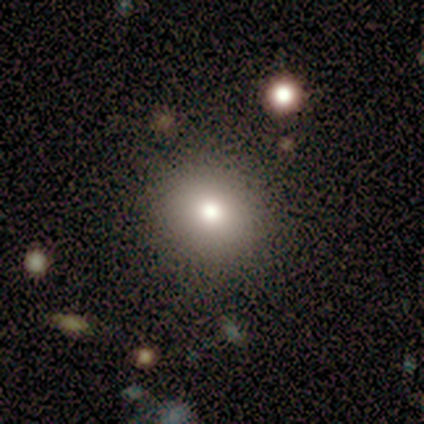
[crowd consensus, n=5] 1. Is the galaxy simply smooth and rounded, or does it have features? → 100% smooth, 0% featured or disk, 0% star or artifact.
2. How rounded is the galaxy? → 80% round, 20% in between, 0% cigar-shaped.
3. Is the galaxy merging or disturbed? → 80% none, 20% minor disturbance, 0% major disturbance, 0% merger.